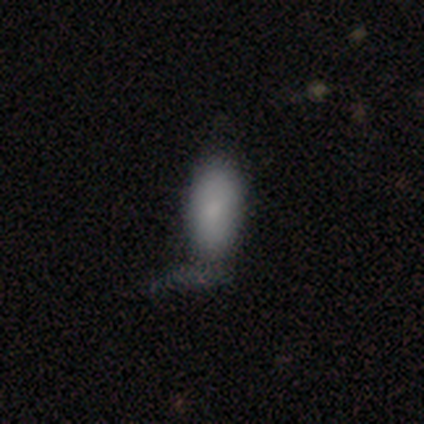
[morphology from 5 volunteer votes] smooth-or-featured: smooth: 100% | featured or disk: 0% | star or artifact: 0%
  how-rounded: in between: 80% | round: 20% | cigar-shaped: 0%
  merging: none: 60% | major disturbance: 40% | minor disturbance: 0% | merger: 0%